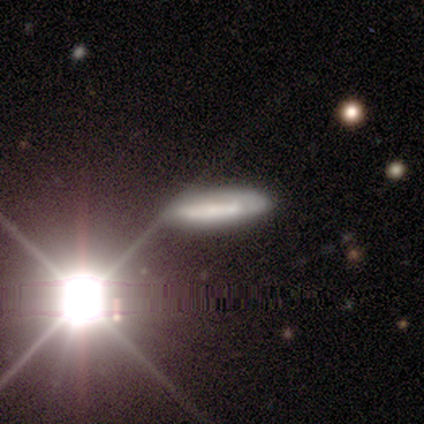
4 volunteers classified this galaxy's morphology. This appears to be a smooth galaxy with no disk features (75%) that is cigar-shaped (100%). Merging: none (100%).